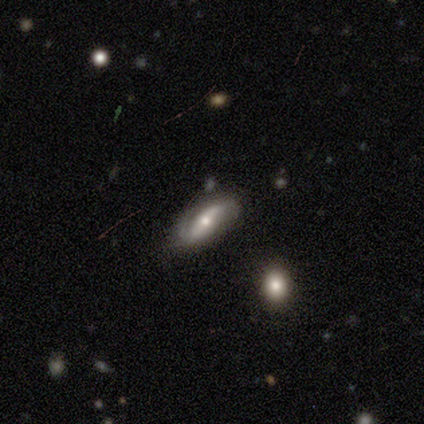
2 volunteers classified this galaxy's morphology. Smooth or featured? 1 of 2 (50%, tied with featured or disk) said smooth. How rounded? 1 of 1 (100%) said cigar-shaped. Merging? 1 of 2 (50%, tied with minor disturbance) said none.